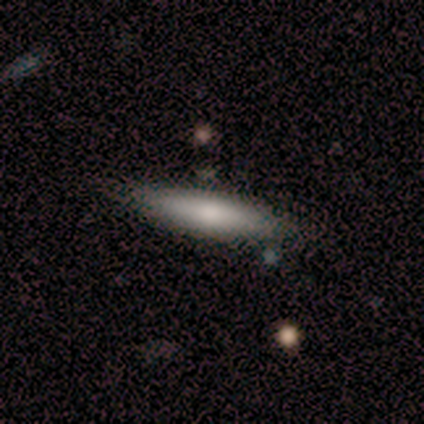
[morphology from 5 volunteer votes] Smooth or featured? 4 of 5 (80%) said smooth. How rounded? 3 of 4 (75%) said cigar-shaped. Merging? 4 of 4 (100%) said none.